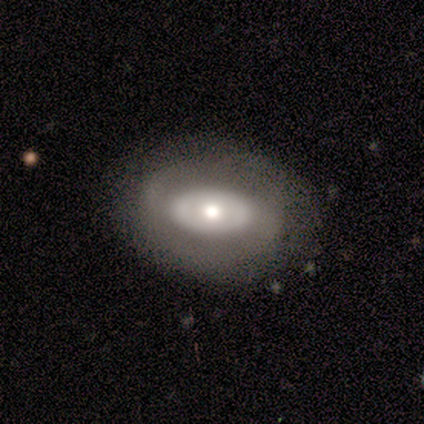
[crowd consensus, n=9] Smooth or featured? featured or disk (56%)
Edge-on disk? no (100%)
Bar? no (100%)
Spiral arms? no (100%)
Bulge size? moderate (60%)
Merging? none (62%)